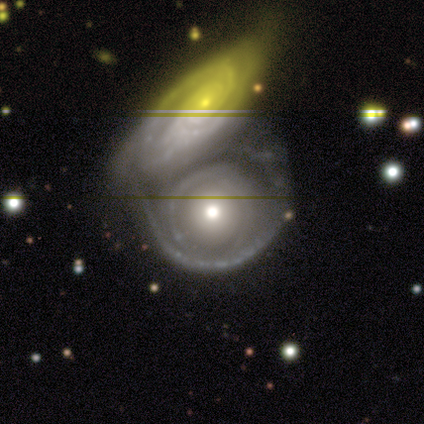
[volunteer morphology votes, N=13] Smooth or featured: featured or disk — 77% (smooth — 23%)
Edge-on disk: no — 90% (yes — 10%)
Bar: no — 100%
Spiral arms: yes — 67% (no — 33%)
Spiral winding: tight — 83% (medium — 17%)
Spiral arm count: can't tell — 50% (2 — 33%)
Bulge size: moderate — 78% (small — 22%)
Merging: merger — 92% (major disturbance — 8%)